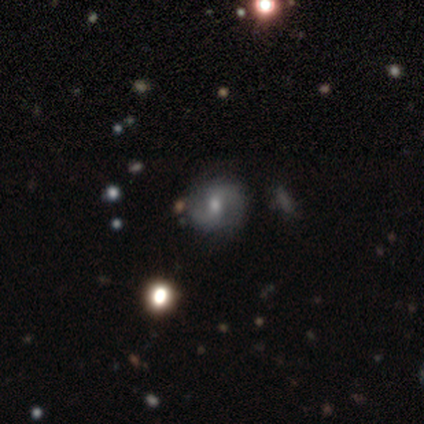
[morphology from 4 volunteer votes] type=featured or disk (75%); edge-on=no (100%); bar=strong (33%, tied with weak and no); spiral arms=yes (67%); winding=medium (100%); arm count=2 (100%); bulge=dominant (33%, tied with moderate and small); merging=none (50%).